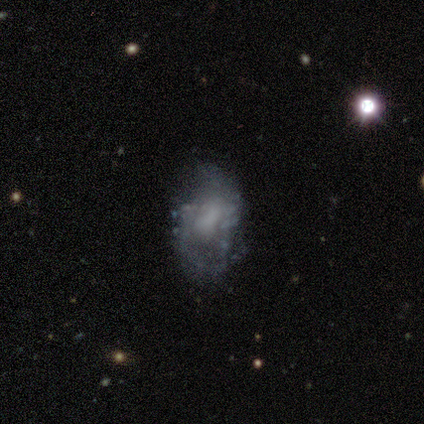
Smooth or featured: featured or disk — 80% (star or artifact — 20%)
Edge-on disk: no — 100%
Bar: no — 100%
Spiral arms: no — 75% (yes — 25%)
Bulge size: none — 75% (moderate — 25%)
Merging: none — 50% (tied with minor disturbance — 50%)